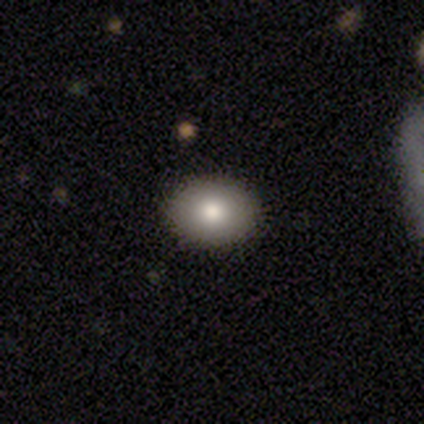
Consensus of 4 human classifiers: Smooth or featured? smooth (100%)
How rounded? in between (75%)
Merging? none (100%)